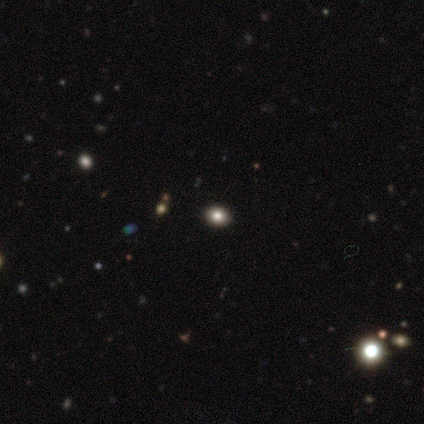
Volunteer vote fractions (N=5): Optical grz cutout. It shows a smooth galaxy with no disk features (100%) that is round (80%). Merging: none (100%).